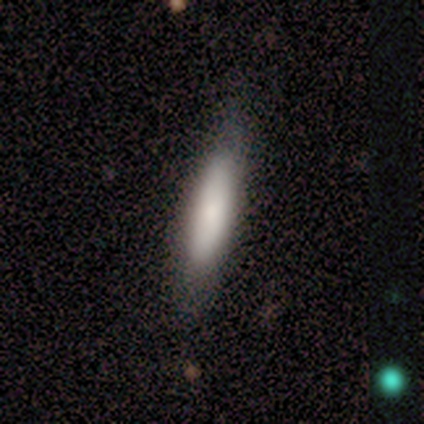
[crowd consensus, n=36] A smooth galaxy with no disk features (78%) that is cigar-shaped (75%).

Vote fractions:
- Smooth or featured? smooth: 78% / featured or disk: 14% / star or artifact: 8%
- How rounded? cigar-shaped: 75% / in between: 25% / round: 0%
- Merging? none: 85% / minor disturbance: 15% / major disturbance: 0% / merger: 0%